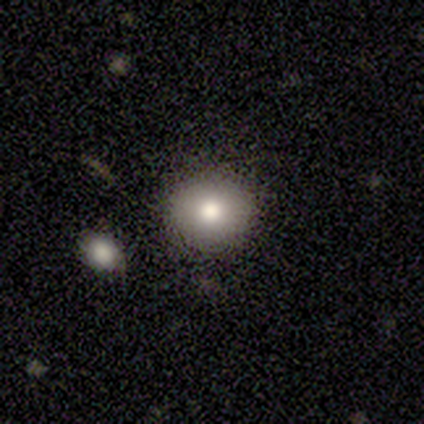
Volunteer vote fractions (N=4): Q: Smooth or featured?
A: smooth (100%)
Q: How rounded?
A: round (100%)
Q: Merging?
A: none (100%)